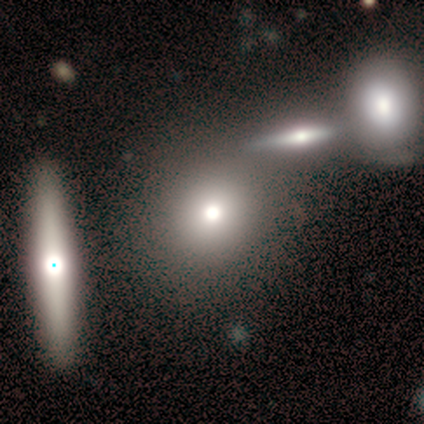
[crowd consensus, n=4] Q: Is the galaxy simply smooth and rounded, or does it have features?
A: smooth — 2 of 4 (50%, tied with featured or disk).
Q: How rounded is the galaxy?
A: round — 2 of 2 (100%).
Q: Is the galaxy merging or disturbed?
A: none — 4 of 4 (100%).